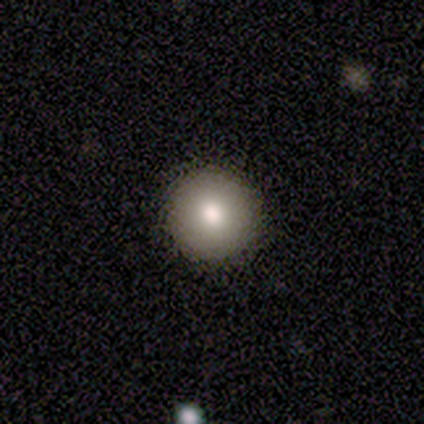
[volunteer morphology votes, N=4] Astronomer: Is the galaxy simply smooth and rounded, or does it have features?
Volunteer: smooth — 100%.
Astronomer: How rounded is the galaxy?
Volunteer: round — 100%.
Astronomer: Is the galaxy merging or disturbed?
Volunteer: none — 50%.